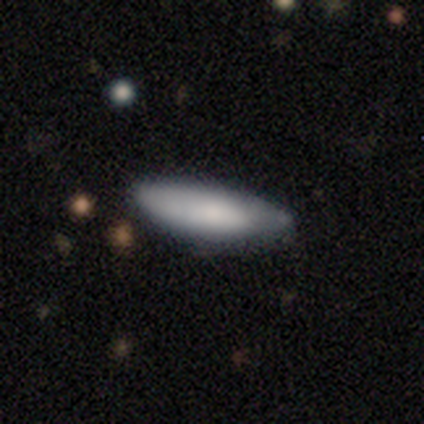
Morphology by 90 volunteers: Overall: smooth (79%). How rounded: in between (51%; cigar-shaped 49%). Merging: none (69%).